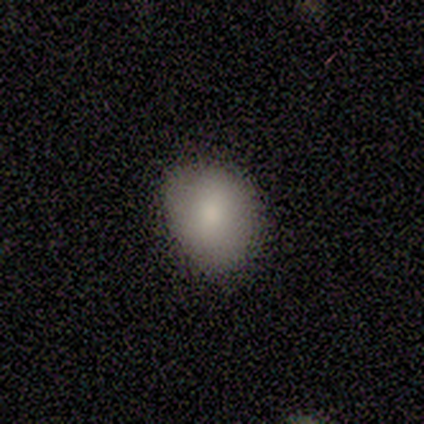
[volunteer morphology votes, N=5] Volunteers were most divided on "how rounded" (2-way tie): round: 50%, in between: 50%, cigar-shaped: 0%. More confident: merging — none (100%); smooth or featured — smooth (80%).